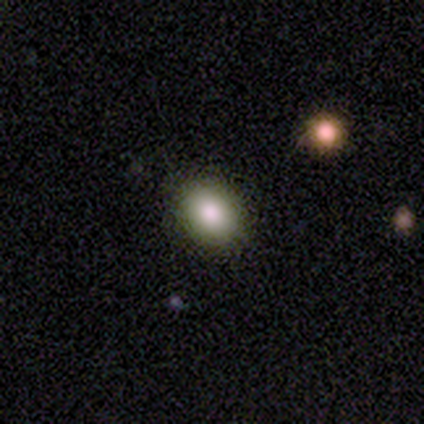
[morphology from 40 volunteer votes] Smooth or featured? smooth (90%)
How rounded? in between (72%)
Merging? none (87%)